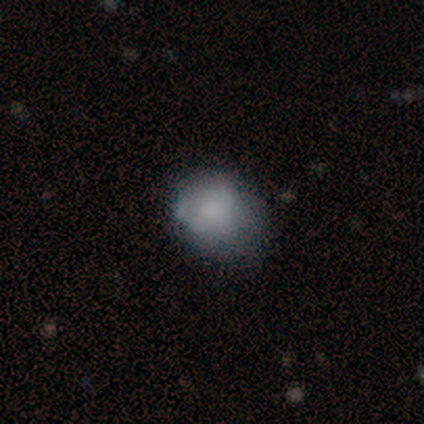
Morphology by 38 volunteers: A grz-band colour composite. It shows a smooth galaxy with no disk features (82%) that is round (68%). Merging: minor disturbance (41%).